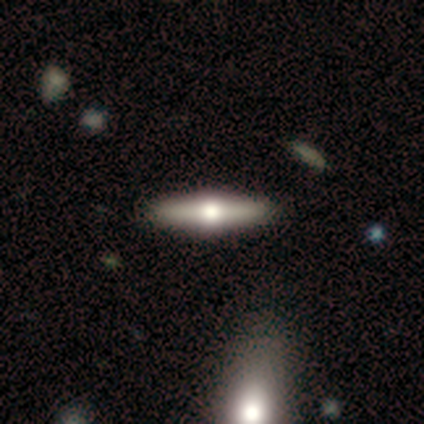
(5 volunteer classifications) Smooth or featured? 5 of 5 (100%) said featured or disk. Edge-on disk? 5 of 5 (100%) said yes. Edge-on bulge? 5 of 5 (100%) said rounded. Merging? 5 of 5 (100%) said none.